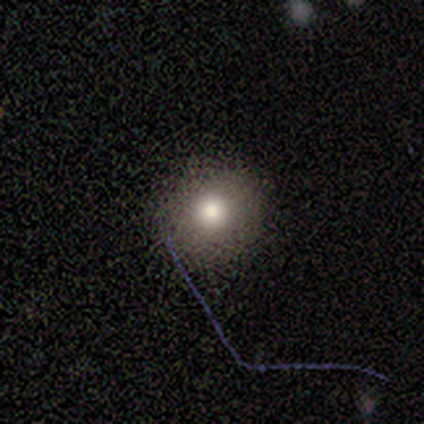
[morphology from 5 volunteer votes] type=smooth (60%); roundness=round (100%); merging=none (100%).